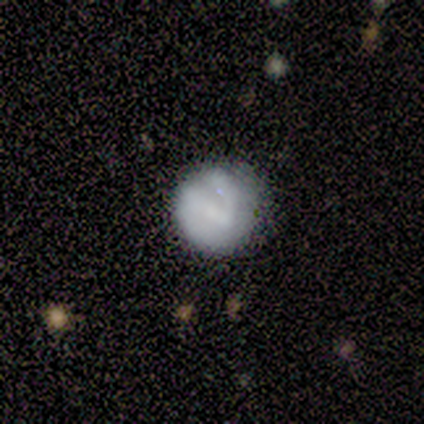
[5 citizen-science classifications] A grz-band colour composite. It shows a featured or disk galaxy (60%) with a strong bar (67%), 2 (50%, tied with can't tell) tight (100%) spiral arms (67%) and a small central bulge (67%). Merging: none (100%).